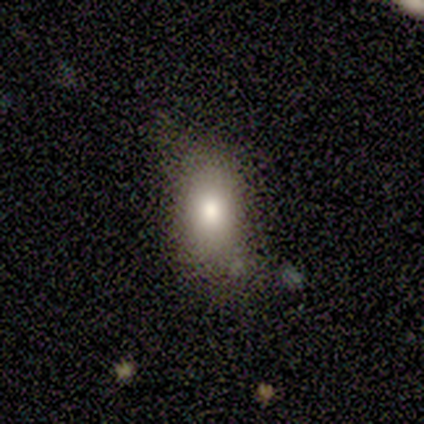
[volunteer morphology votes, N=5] Volunteers were most divided on "merging": minor disturbance: 60%, none: 20%, major disturbance: 20%, merger: 0%. More confident: smooth or featured — smooth (100%); how rounded — in between (100%).